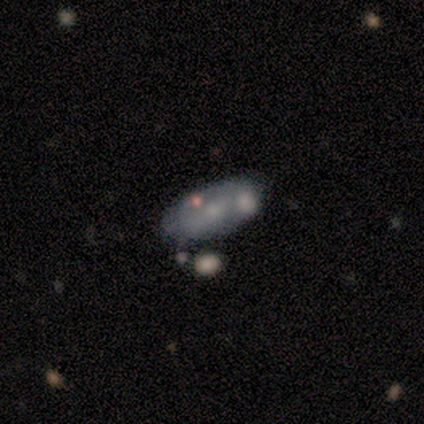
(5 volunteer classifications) Smooth or featured? 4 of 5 (80%) said featured or disk. Edge-on disk? 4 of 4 (100%) said no. Bar? 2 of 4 (50%) said no. Spiral arms? 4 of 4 (100%) said no. Bulge size? 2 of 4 (50%, tied with small) said moderate. Merging? 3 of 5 (60%) said none.